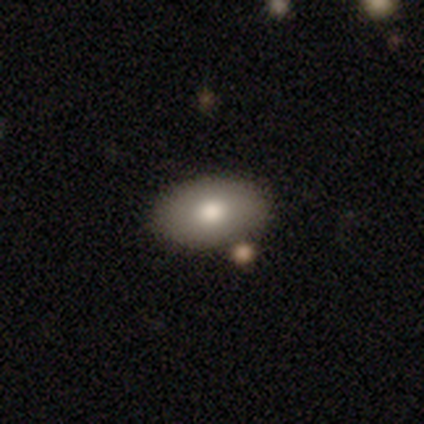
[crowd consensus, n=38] Smooth or featured: smooth — 89% (featured or disk — 5%)
How rounded: in between — 85% (round — 12%)
Merging: none — 83% (minor disturbance — 8%)